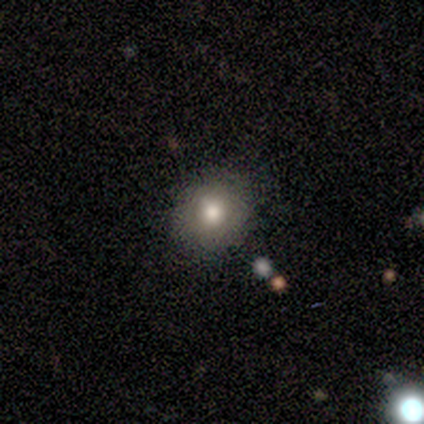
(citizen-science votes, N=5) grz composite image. It shows a smooth galaxy with no disk features (80%) that is round (100%). Merging: none (100%).